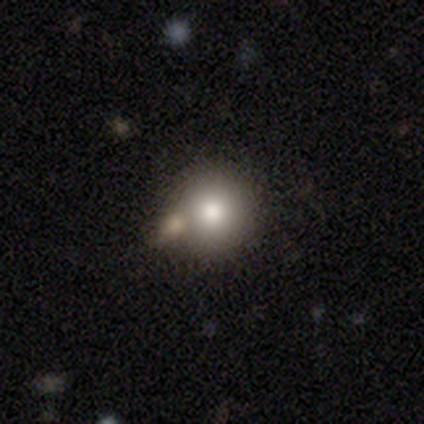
smooth-or-featured: smooth: 80% | star or artifact: 11% | featured or disk: 9%
  how-rounded: round: 100% | in between: 0% | cigar-shaped: 0%
  merging: none: 50% | merger: 32% | minor disturbance: 10% | major disturbance: 8%